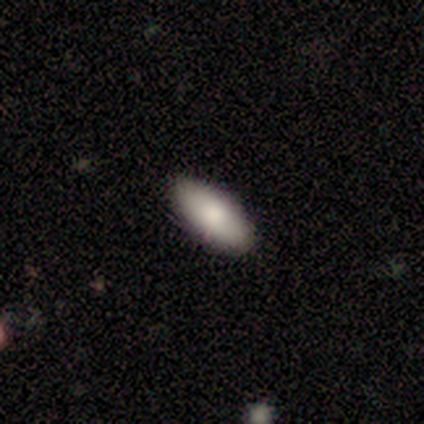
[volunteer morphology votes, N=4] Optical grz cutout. It shows a smooth galaxy with no disk features (50%, tied with featured or disk) that is in between round and cigar-shaped (100%). Merging: none (75%).